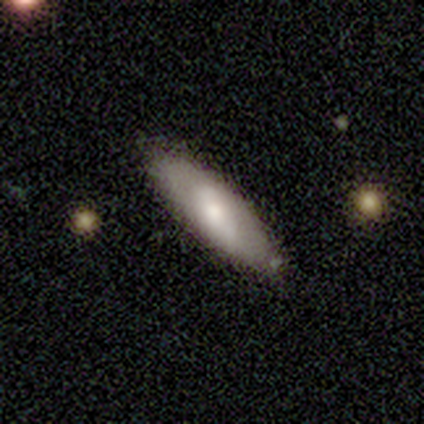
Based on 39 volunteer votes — smooth 69%, featured or disk 26%, star or artifact 5%. Down the decision tree: how rounded — in between (52%); merging — none (86%).